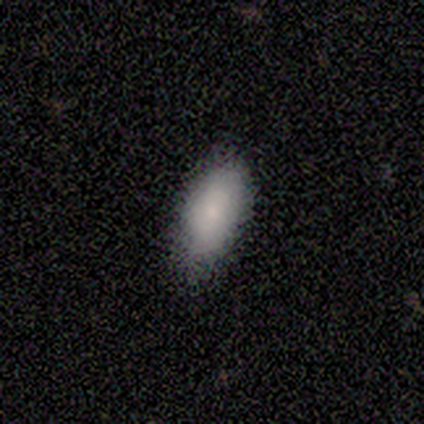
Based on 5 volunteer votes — Overall: smooth (100%). How rounded: in between (100%). Merging: none (100%).